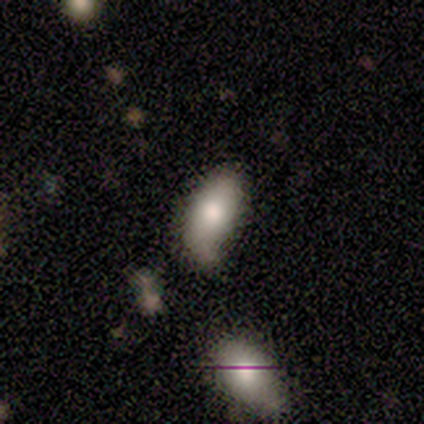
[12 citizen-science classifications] Overall: smooth (75%). How rounded: in between (89%). Merging: none (40%, tied with minor disturbance).